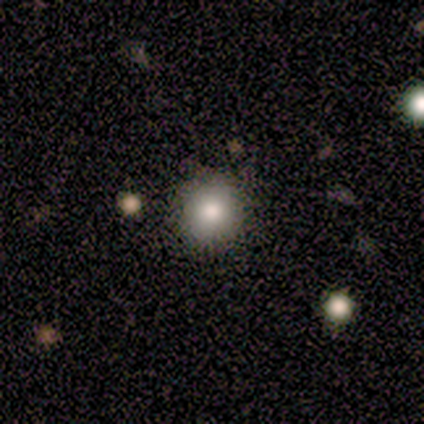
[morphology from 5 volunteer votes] Q: Smooth or featured?
A: smooth (80%); runner-up: star or artifact (20%)
Q: How rounded?
A: round (75%); runner-up: in between (25%)
Q: Merging?
A: none (100%)